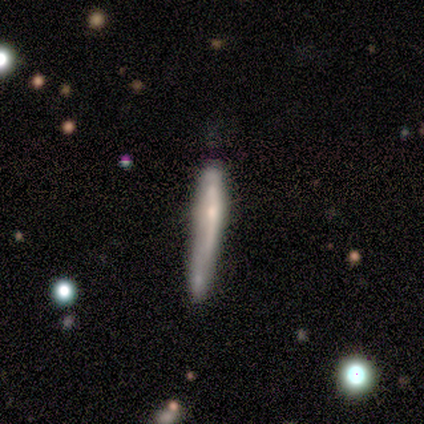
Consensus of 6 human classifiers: This appears to be a featured or disk galaxy (67%) viewed edge-on (75%) with a rounded central bulge (67%). Merging: none (50%).